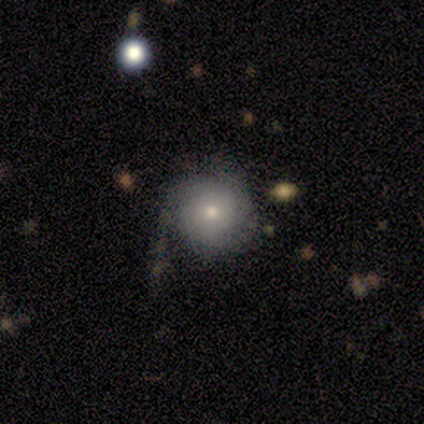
A smooth galaxy with no disk features (100%) that is round (100%).

Vote fractions:
- Smooth or featured? smooth: 100% / featured or disk: 0% / star or artifact: 0%
- How rounded? round: 100% / in between: 0% / cigar-shaped: 0%
- Merging? none: 80% / minor disturbance: 20% / major disturbance: 0% / merger: 0%